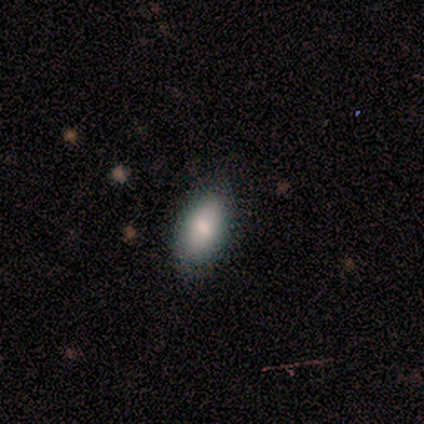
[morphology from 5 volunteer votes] Smooth or featured? smooth (100%)
How rounded? in between (100%)
Merging? none (100%)